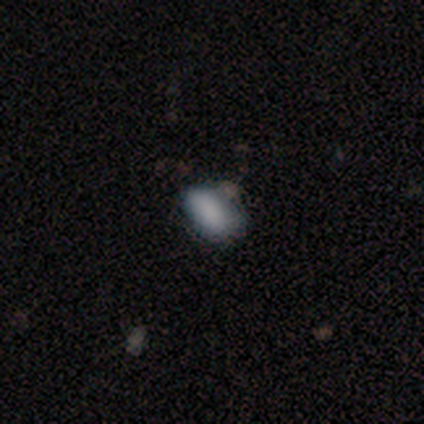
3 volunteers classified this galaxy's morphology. Q: Smooth or featured?
A: smooth (67%); runner-up: star or artifact (33%)
Q: How rounded?
A: in between (100%)
Q: Merging?
A: none (100%)